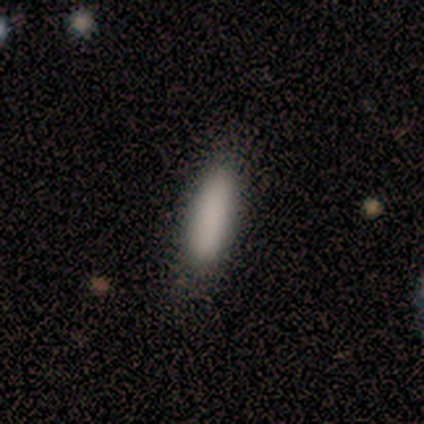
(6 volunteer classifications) smooth 83%, star or artifact 17%, featured or disk 0%. Down the decision tree: how rounded — cigar-shaped (60%); merging — none (100%).